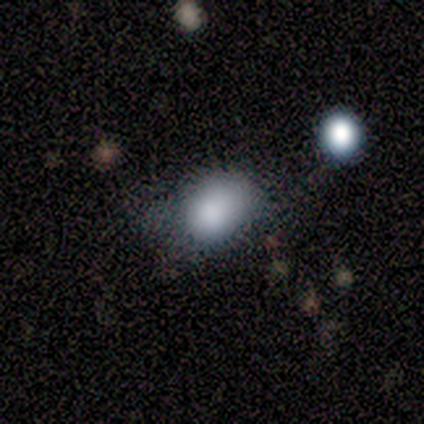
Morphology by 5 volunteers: Smooth or featured: smooth — 100%
How rounded: in between — 60% (round — 40%)
Merging: none — 40% (tied with minor disturbance — 40%)